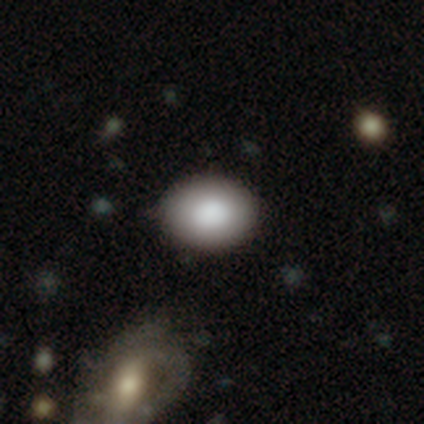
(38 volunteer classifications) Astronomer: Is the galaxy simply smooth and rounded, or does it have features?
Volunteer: smooth — 74%.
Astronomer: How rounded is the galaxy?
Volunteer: in between — 79%.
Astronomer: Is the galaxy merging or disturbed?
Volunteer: none — 59%.